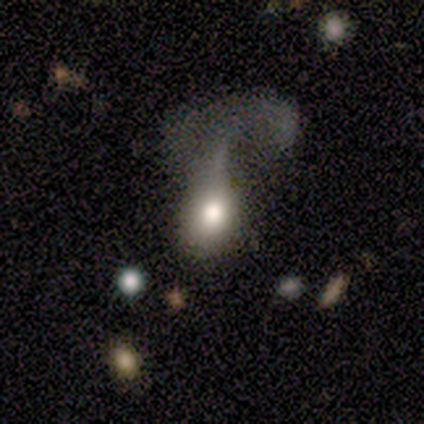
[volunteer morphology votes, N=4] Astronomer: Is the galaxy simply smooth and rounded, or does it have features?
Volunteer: smooth — 100%.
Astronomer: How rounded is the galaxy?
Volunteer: round — 50%, tied with in between at 50%.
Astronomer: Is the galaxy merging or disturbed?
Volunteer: major disturbance — 50%.